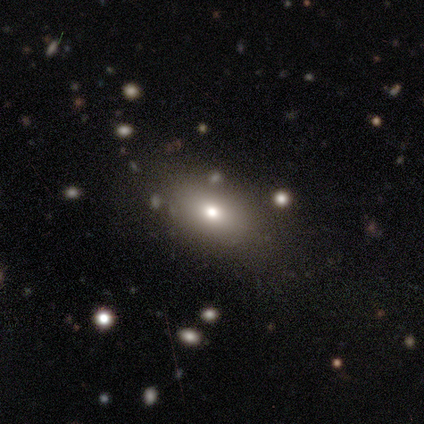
Q: Smooth or featured?
A: smooth (60%); runner-up: featured or disk (40%)
Q: How rounded?
A: in between (100%)
Q: Merging?
A: none (80%); runner-up: major disturbance (20%)